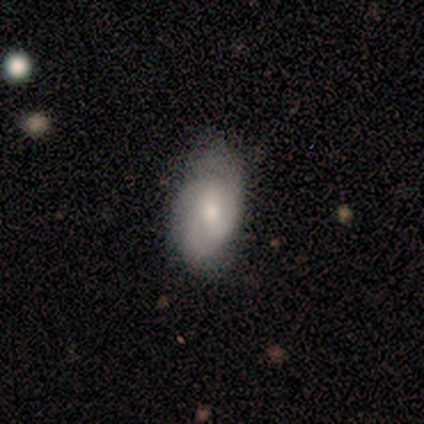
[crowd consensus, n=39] Morphology: type=featured or disk (62%); edge-on=no (100%); bar=weak (50%); spiral arms=yes (83%); winding=medium (65%); arm count=2 (55%); bulge=moderate (58%); merging=none (49%).